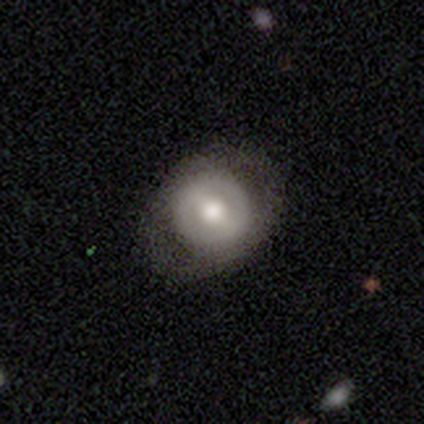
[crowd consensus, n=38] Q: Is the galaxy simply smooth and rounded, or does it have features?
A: featured or disk — 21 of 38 (55%).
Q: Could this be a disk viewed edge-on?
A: no — 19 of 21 (90%).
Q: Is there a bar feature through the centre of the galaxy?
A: weak — 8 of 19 (42%).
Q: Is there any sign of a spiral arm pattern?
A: no — 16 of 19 (84%).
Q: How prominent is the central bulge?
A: moderate — 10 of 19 (53%).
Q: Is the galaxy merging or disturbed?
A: none — 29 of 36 (81%).